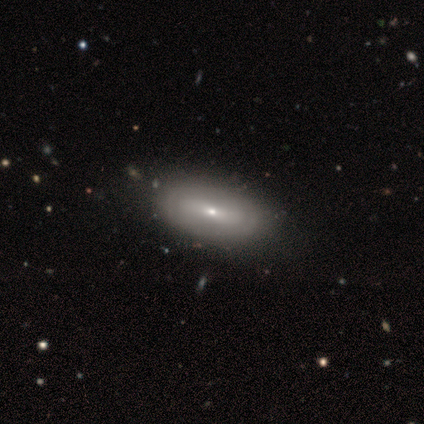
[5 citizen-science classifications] This appears to be a featured or disk galaxy (80%) with no bar (67%), no spiral arms (100%) and a moderate central bulge (67%). Merging: none (60%).